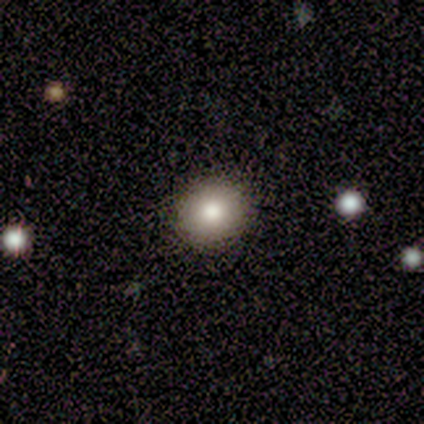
Smooth or featured? 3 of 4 (75%) said smooth. How rounded? 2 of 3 (67%) said round. Merging? 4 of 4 (100%) said none.